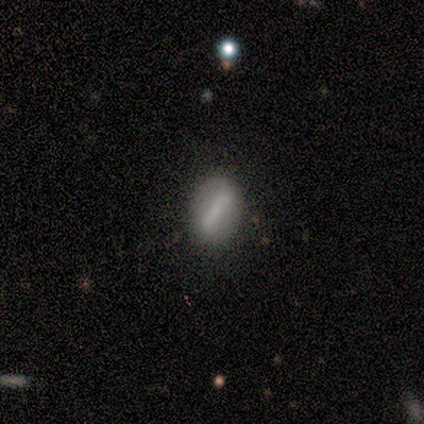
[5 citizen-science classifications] A smooth galaxy with no disk features (100%) that is in between round and cigar-shaped (100%).

Vote fractions:
- Smooth or featured? smooth: 100% / featured or disk: 0% / star or artifact: 0%
- How rounded? in between: 100% / round: 0% / cigar-shaped: 0%
- Merging? none: 40% (tied) / minor disturbance: 40% (tied) / merger: 20% / major disturbance: 0%